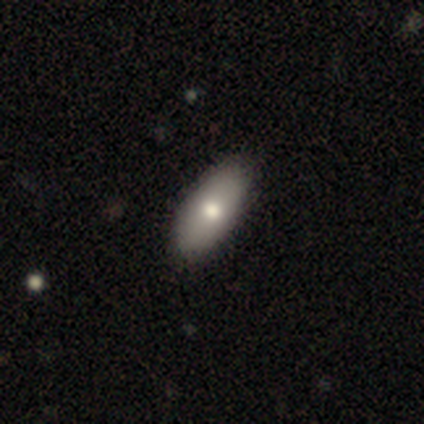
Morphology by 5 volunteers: Smooth or featured?
  - smooth: 80% *
  - featured or disk: 20%
  - star or artifact: 0%
How rounded?
  - in between: 100% *
  - round: 0%
  - cigar-shaped: 0%
Merging?
  - minor disturbance: 60% *
  - none: 40%
  - major disturbance: 0%
  - merger: 0%